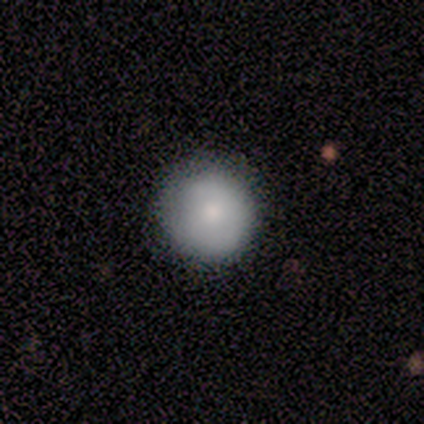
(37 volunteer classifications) This is likely a smooth galaxy (70%). How rounded: clearly round (96%). Merging: clearly none (85%).